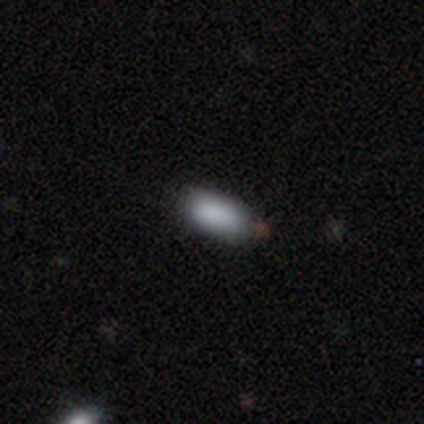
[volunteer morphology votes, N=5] Smooth or featured? smooth (100%)
How rounded? in between (100%)
Merging? none (100%)